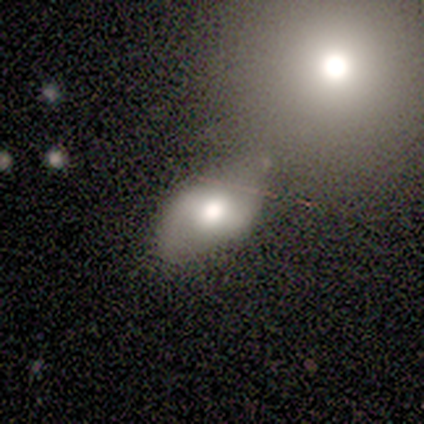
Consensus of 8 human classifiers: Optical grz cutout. It shows a smooth galaxy with no disk features (50%) that is in between round and cigar-shaped (75%). Merging: none (71%).